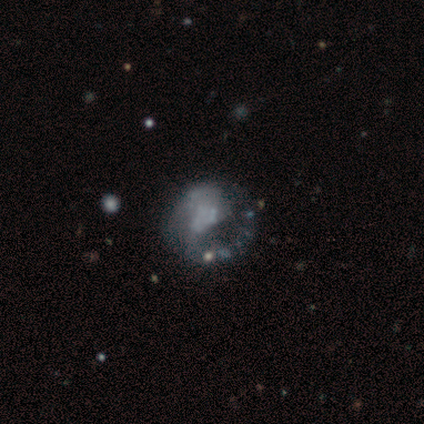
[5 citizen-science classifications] Smooth or featured?
  - featured or disk: 100% *
  - smooth: 0%
  - star or artifact: 0%
Edge-on disk?
  - no: 100% *
  - yes: 0%
Bar?
  - no: 100% *
  - strong: 0%
  - weak: 0%
Spiral arms?
  - yes: 60% *
  - no: 40%
Spiral winding?
  - medium: 67% *
  - loose: 33%
  - tight: 0%
Spiral arm count?
  - 1: 100% *
  - 2: 0%
  - 3: 0%
  - 4: 0%
  - more than 4: 0%
  - can't tell: 0%
Bulge size?
  - none: 80% *
  - small: 20%
  - dominant: 0%
  - large: 0%
  - moderate: 0%
Merging?
  - major disturbance: 60% *
  - none: 40%
  - minor disturbance: 0%
  - merger: 0%